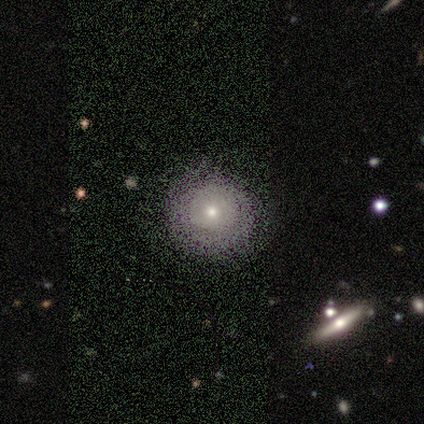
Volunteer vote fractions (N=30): smooth-or-featured: smooth: 73% | star or artifact: 17% | featured or disk: 10%
  how-rounded: round: 95% | in between: 5% | cigar-shaped: 0%
  merging: none: 72% | minor disturbance: 20% | major disturbance: 4% | merger: 4%